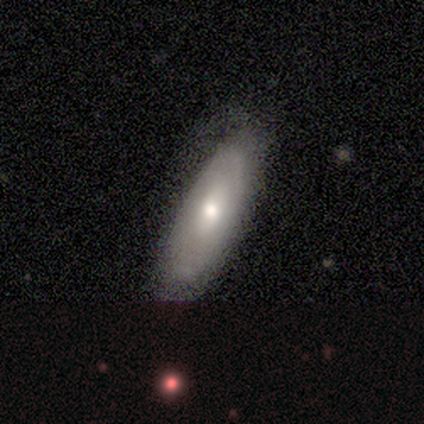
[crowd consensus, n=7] Smooth or featured?
  - featured or disk: 57% *
  - smooth: 43%
  - star or artifact: 0%
Edge-on disk?
  - no: 100% *
  - yes: 0%
Bar?
  - no: 75% *
  - weak: 25%
  - strong: 0%
Spiral arms?
  - no: 75% *
  - yes: 25%
Bulge size?
  - moderate: 75% *
  - small: 25%
  - dominant: 0%
  - large: 0%
  - none: 0%
Merging?
  - none: 71% *
  - minor disturbance: 14%
  - major disturbance: 14%
  - merger: 0%